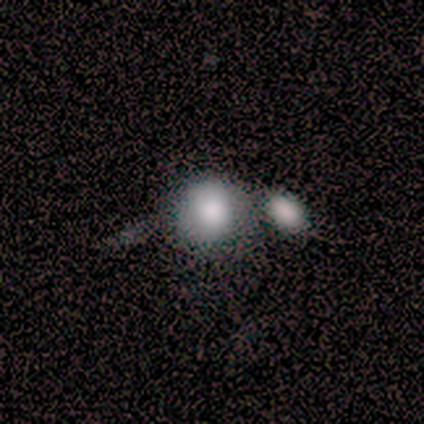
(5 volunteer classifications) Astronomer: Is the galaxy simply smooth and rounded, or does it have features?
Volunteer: smooth — 80%.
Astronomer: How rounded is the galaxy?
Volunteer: round — 100%.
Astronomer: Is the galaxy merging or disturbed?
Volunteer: merger — 60% (runner-up: none, 40%).